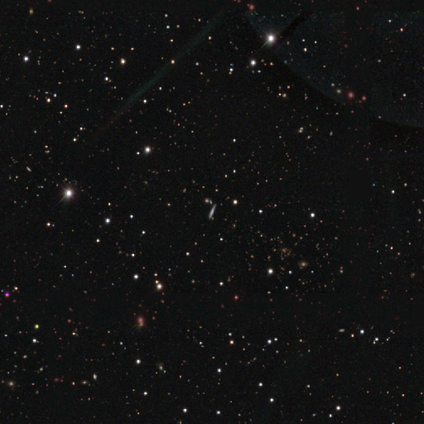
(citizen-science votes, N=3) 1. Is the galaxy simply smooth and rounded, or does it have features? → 67% featured or disk, 33% star or artifact, 0% smooth.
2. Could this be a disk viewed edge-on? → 100% yes, 0% no.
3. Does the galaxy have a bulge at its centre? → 50% boxy (tied), 50% rounded (tied), 0% none.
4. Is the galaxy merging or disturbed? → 50% none (tied), 50% minor disturbance (tied), 0% major disturbance, 0% merger.